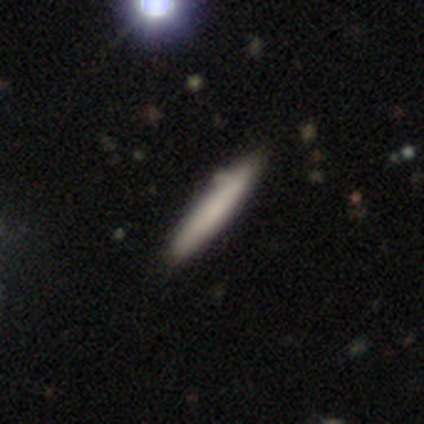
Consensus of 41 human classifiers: Smooth or featured?
  - smooth: 88% *
  - featured or disk: 12%
  - star or artifact: 0%
How rounded?
  - cigar-shaped: 100% *
  - round: 0%
  - in between: 0%
Merging?
  - none: 90% *
  - minor disturbance: 7%
  - merger: 2%
  - major disturbance: 0%